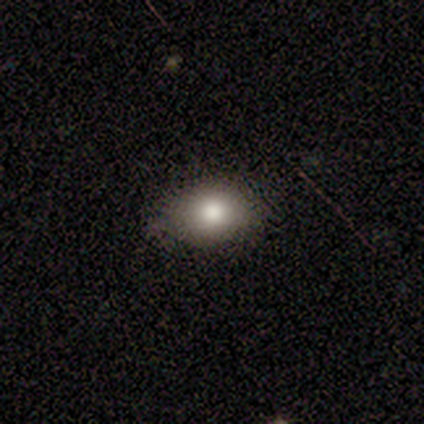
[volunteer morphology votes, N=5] A smooth galaxy with no disk features (80%) that is in between round and cigar-shaped (75%).

Vote fractions:
- Smooth or featured? smooth: 80% / featured or disk: 20% / star or artifact: 0%
- How rounded? in between: 75% / round: 25% / cigar-shaped: 0%
- Merging? minor disturbance: 60% / none: 40% / major disturbance: 0% / merger: 0%